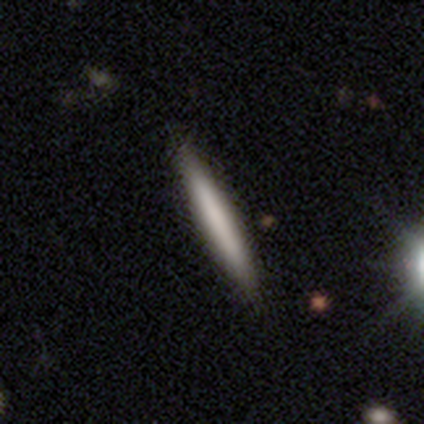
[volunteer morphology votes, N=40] smooth_or_featured: smooth (p=0.57) [alt: featured or disk p=0.38]
how_rounded: cigar-shaped (p=1.00)
merging: none (p=0.95) [alt: minor disturbance p=0.05]